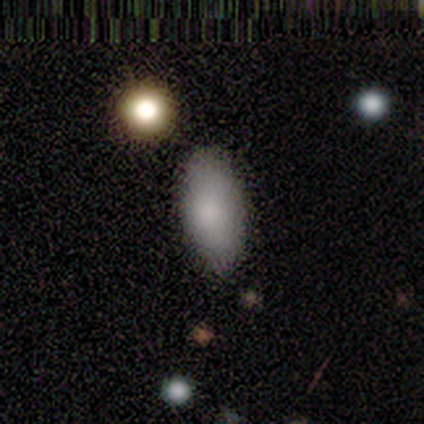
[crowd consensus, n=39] Smooth or featured? smooth (82%)
How rounded? in between (94%)
Merging? none (50%)